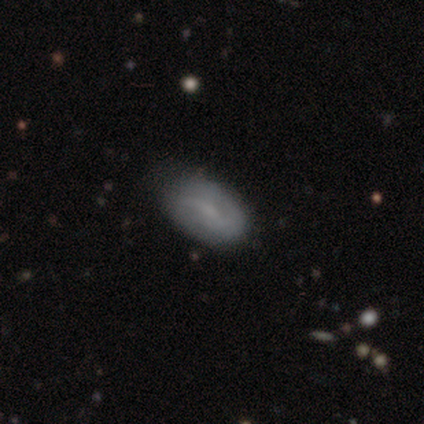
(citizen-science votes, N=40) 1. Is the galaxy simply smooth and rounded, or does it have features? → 57% featured or disk, 42% smooth, 0% star or artifact.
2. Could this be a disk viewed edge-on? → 100% no, 0% yes.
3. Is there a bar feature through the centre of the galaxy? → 48% weak, 43% no, 9% strong.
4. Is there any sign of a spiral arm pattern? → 70% yes, 30% no.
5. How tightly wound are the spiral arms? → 75% loose, 12% tight, 12% medium.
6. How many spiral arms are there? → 44% 2 (tied), 44% can't tell (tied), 12% 1, 0% 3, 0% 4, 0% more than 4.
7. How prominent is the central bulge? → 61% none, 26% small, 13% moderate, 0% dominant, 0% large.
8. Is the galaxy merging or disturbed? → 38% none, 18% minor disturbance, 8% major disturbance, 2% merger.